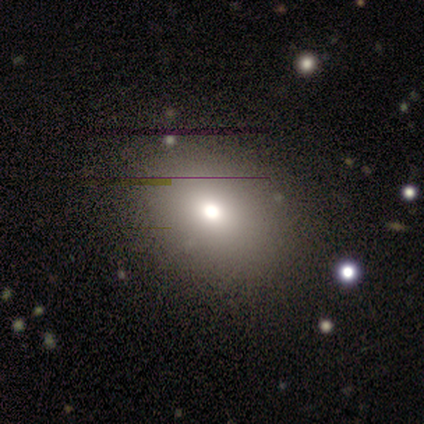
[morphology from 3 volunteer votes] This appears to be a star or artifact, not a galaxy (67%).